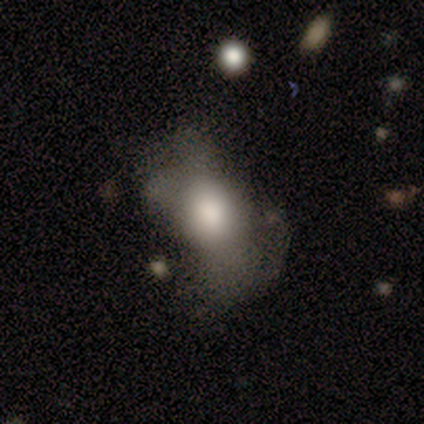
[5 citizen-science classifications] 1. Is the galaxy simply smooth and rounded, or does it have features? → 60% smooth, 40% star or artifact, 0% featured or disk.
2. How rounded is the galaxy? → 67% in between, 33% round, 0% cigar-shaped.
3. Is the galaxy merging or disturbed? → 33% none (tied), 33% major disturbance (tied), 33% merger (tied), 0% minor disturbance.